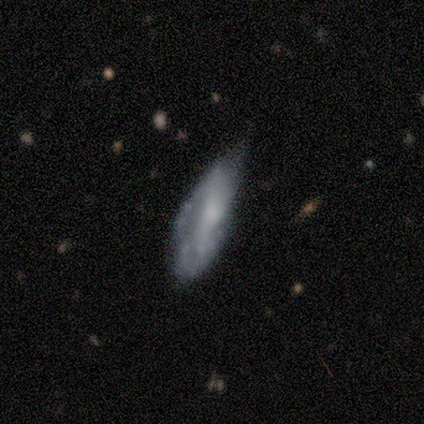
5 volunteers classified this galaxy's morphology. smooth-or-featured: featured or disk: 80% | smooth: 20% | star or artifact: 0%
  disk-edge-on: no: 100% | yes: 0%
    bar: no: 75% | weak: 25% | strong: 0%
    has-spiral-arms: yes: 75% | no: 25%
      spiral-winding: tight: 67% | medium: 33% | loose: 0%
      spiral-arm-count: can't tell: 100% | 1: 0% | 2: 0% | 3: 0% | 4: 0% | more than 4: 0%
    bulge-size: none: 50% | moderate: 25% | small: 25% | dominant: 0% | large: 0%
  merging: none: 40% (tied) | minor disturbance: 40% (tied) | major disturbance: 20% | merger: 0%